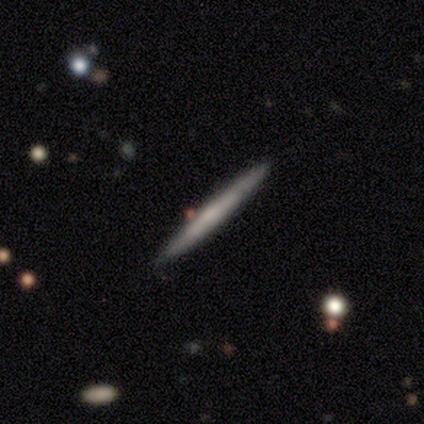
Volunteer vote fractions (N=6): Smooth or featured?
  - featured or disk: 50% *
  - smooth: 33%
  - star or artifact: 17%
Edge-on disk?
  - yes: 100% *
  - no: 0%
Edge-on bulge?
  - rounded: 67% *
  - boxy: 33%
  - none: 0%
Merging?
  - none: 60% *
  - minor disturbance: 40%
  - major disturbance: 0%
  - merger: 0%